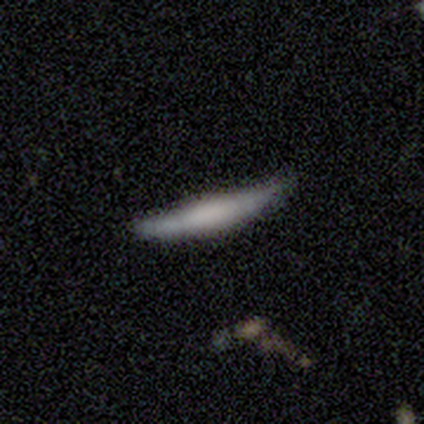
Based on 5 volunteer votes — Smooth or featured? featured or disk (80%)
Edge-on disk? yes (50%, tied with no)
Edge-on bulge? boxy (50%, tied with none)
Merging? minor disturbance (40%, tied with major disturbance)